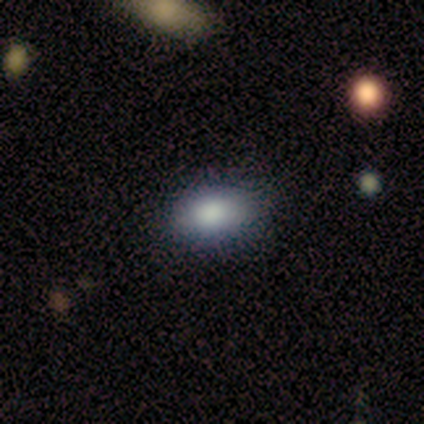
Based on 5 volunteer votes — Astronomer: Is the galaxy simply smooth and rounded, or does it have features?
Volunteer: smooth — 100%.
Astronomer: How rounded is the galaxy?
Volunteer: in between — 100%.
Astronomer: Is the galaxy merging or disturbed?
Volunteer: none — 100%.